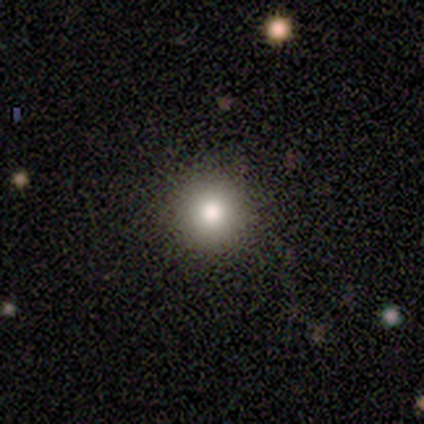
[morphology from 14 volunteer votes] type=smooth (79%); roundness=round (100%); merging=none (92%).